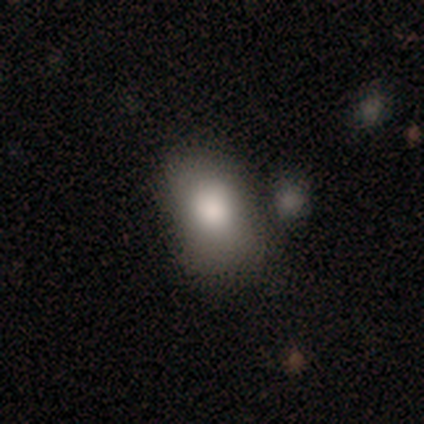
Volunteers were most divided on "how rounded": in between: 67%, round: 33%, cigar-shaped: 0%. More confident: smooth or featured — smooth (100%); merging — minor disturbance (67%).